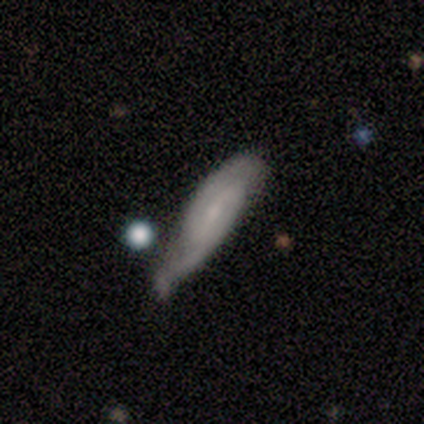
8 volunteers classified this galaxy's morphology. Smooth or featured?
  - featured or disk: 88% *
  - smooth: 12%
  - star or artifact: 0%
Edge-on disk?
  - no: 86% *
  - yes: 14%
Bar?
  - weak: 50% *
  - no: 33%
  - strong: 17%
Spiral arms?
  - yes: 100% *
  - no: 0%
Spiral winding?
  - tight: 50% * (tied)
  - medium: 50% * (tied)
  - loose: 0%
Spiral arm count?
  - 2: 100% *
  - 1: 0%
  - 3: 0%
  - 4: 0%
  - more than 4: 0%
  - can't tell: 0%
Bulge size?
  - moderate: 67% *
  - small: 33%
  - dominant: 0%
  - large: 0%
  - none: 0%
Merging?
  - minor disturbance: 88% *
  - none: 12%
  - major disturbance: 0%
  - merger: 0%